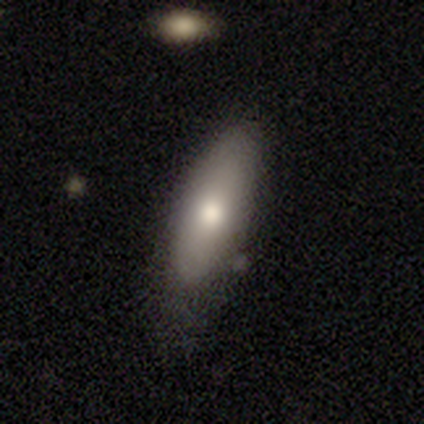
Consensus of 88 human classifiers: smooth_or_featured: smooth (p=0.78) [alt: featured or disk p=0.17]
how_rounded: in between (p=0.52) [alt: cigar-shaped p=0.46]
merging: none (p=0.65) [alt: minor disturbance p=0.26]